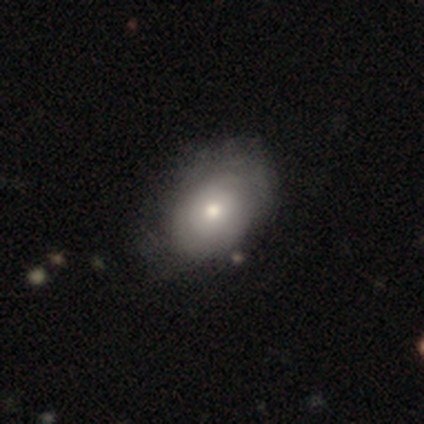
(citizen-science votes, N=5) Q: Smooth or featured?
A: featured or disk (60%); runner-up: smooth (20%)
Q: Edge-on disk?
A: no (100%)
Q: Bar?
A: no (100%)
Q: Spiral arms?
A: no (67%); runner-up: yes (33%)
Q: Bulge size?
A: moderate (67%); runner-up: small (33%)
Q: Merging?
A: none (75%); runner-up: minor disturbance (25%)